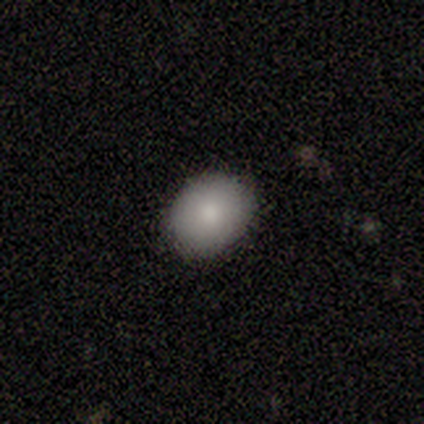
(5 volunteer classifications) Smooth or featured? 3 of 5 (60%) said smooth. How rounded? 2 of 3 (67%) said in between. Merging? 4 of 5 (80%) said none.